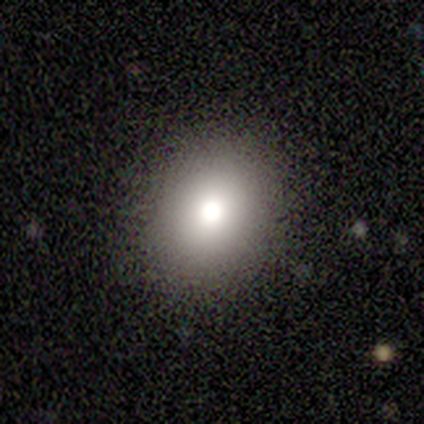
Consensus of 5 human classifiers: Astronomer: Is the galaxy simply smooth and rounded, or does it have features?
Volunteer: smooth — 80%.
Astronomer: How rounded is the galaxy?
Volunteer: round — 50%, tied with in between at 50%.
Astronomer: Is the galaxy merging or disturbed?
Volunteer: none — 100%.